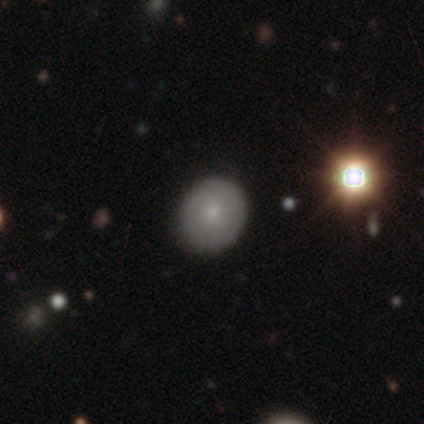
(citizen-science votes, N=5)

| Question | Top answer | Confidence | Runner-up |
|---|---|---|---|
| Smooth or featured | smooth | 100% | — |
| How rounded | round | 80% | in between (20%) |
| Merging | none | 100% | — |